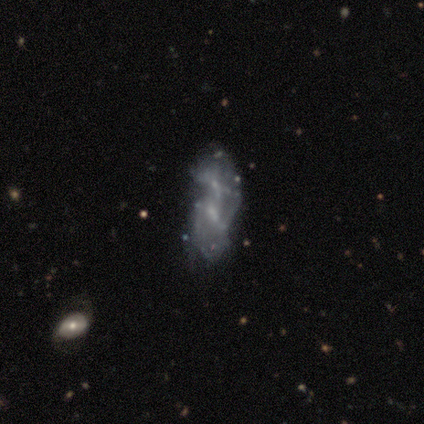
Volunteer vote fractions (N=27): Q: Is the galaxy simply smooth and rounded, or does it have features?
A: featured or disk — 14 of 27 (52%).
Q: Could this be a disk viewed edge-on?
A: no — 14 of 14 (100%).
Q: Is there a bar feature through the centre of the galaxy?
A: weak — 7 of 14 (50%).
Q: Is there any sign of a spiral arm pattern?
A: yes — 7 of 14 (50%, tied with no).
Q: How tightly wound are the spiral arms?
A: loose — 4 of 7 (57%).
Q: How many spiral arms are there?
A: can't tell — 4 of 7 (57%).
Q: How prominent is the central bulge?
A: small — 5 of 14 (36%).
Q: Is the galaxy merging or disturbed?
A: merger — 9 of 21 (43%).